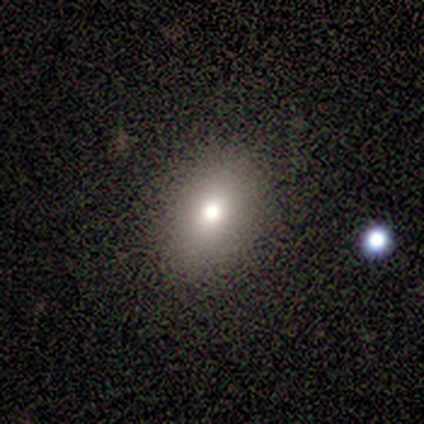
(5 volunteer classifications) Morphology: type=smooth (100%); roundness=in between (100%); merging=none (100%).